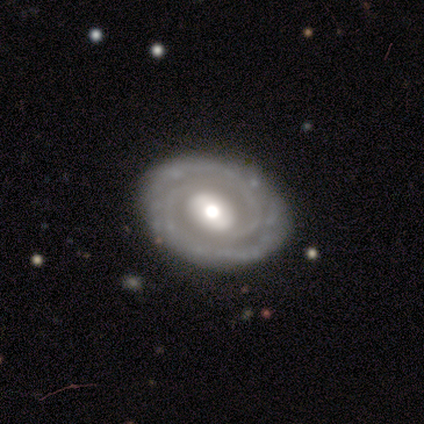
Overall: featured or disk (75%). Edge-on disk: no (100%). Bar: strong (67%; no 33%). Spiral arms: yes (67%; no 33%). Spiral arm count: 2 (100%). Spiral winding: tight (100%). Bulge size: moderate (67%; dominant 33%). Merging: none (67%; minor disturbance 33%).